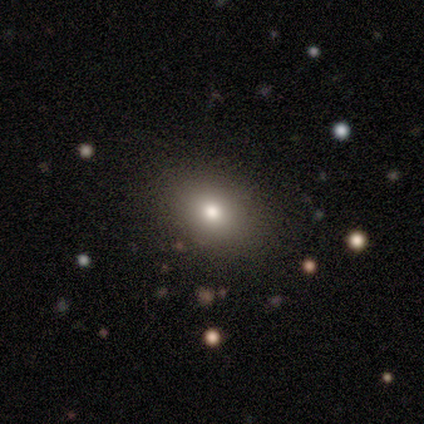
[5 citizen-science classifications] A smooth galaxy with no disk features (80%) that is in between round and cigar-shaped (75%). Merging: none (60%).